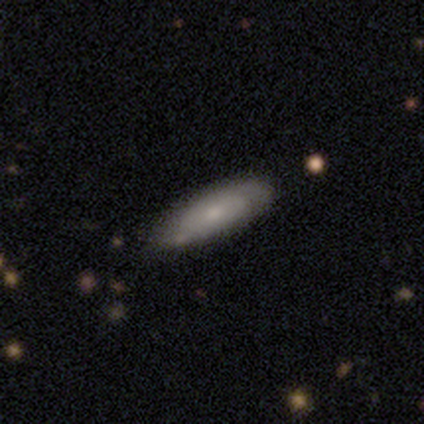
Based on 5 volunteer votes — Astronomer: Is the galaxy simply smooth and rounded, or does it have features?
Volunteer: featured or disk — 80%.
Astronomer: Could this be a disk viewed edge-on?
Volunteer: no — 75%.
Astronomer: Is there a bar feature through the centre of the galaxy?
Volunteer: no — 100%.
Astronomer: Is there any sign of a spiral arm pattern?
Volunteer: no — 67%.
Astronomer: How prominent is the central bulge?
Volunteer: large — 33%, tied with moderate and small at 33%.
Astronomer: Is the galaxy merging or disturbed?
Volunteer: none — 60% (runner-up: minor disturbance, 40%).